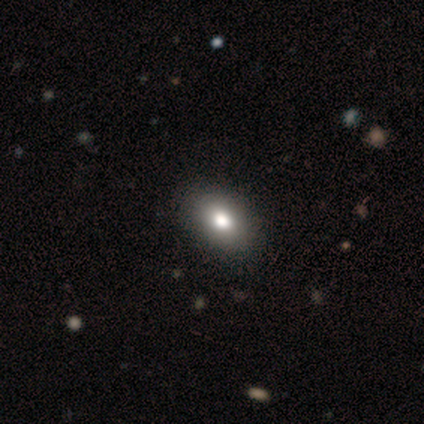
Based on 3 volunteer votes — Morphology: type=smooth (67%); roundness=in between (100%); merging=none (100%).